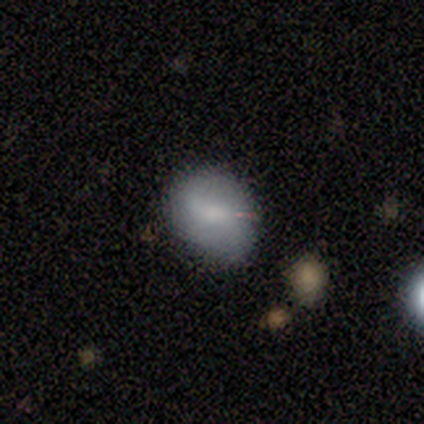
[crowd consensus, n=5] smooth 60%, featured or disk 20%, star or artifact 20%. Down the decision tree: how rounded — round (67%); merging — none (50%, tied with minor disturbance).